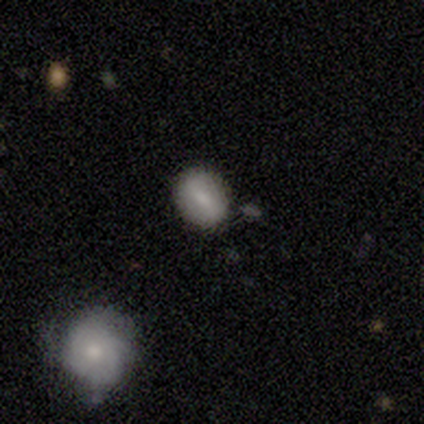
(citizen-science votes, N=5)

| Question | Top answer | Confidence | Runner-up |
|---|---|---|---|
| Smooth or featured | smooth | 80% | featured or disk (20%) |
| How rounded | in between | 75% | round (25%) |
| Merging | none | 80% | minor disturbance (20%) |